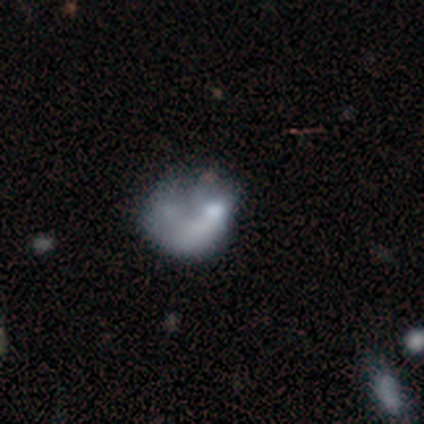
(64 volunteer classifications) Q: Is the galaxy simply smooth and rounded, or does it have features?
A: featured or disk — 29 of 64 (45%).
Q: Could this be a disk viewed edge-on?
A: no — 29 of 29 (100%).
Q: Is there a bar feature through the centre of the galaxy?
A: no — 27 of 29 (93%).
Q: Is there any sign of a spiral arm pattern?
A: no — 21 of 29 (72%).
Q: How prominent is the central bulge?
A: none — 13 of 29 (45%).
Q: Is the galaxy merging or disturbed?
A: major disturbance — 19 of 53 (36%).